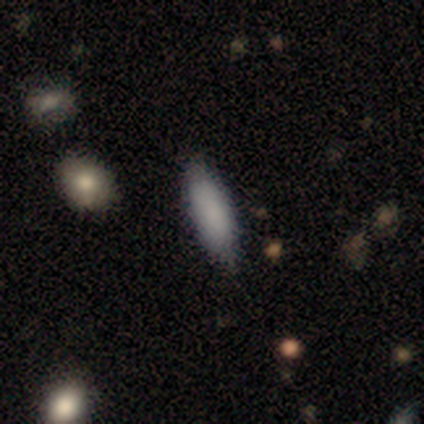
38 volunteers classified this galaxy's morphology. Volunteers were most divided on "how rounded": in between: 61%, cigar-shaped: 39%, round: 0%. More confident: merging — none (83%); smooth or featured — smooth (82%).